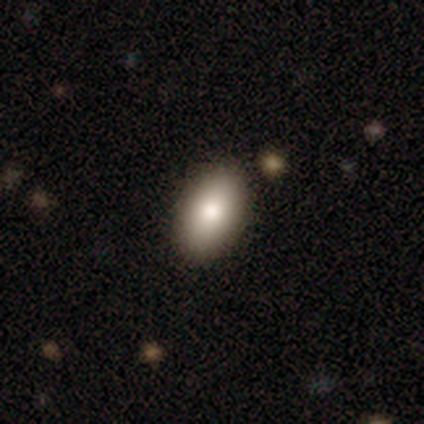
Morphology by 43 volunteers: Overall: smooth (74%). How rounded: in between (100%). Merging: none (85%).